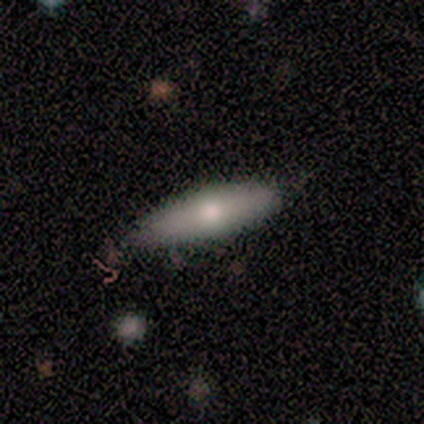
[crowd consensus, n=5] Q: Smooth or featured?
A: smooth (100%)
Q: How rounded?
A: cigar-shaped (60%); runner-up: in between (40%)
Q: Merging?
A: none (80%); runner-up: minor disturbance (20%)